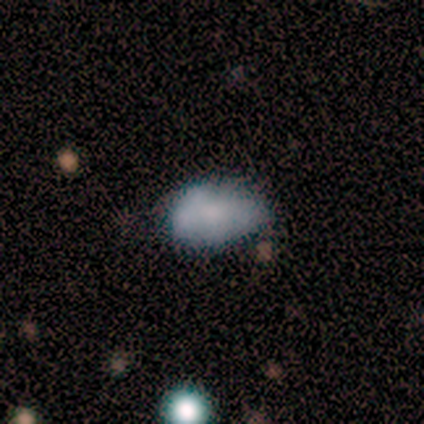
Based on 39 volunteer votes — Smooth or featured?
  - smooth: 67% *
  - featured or disk: 28%
  - star or artifact: 5%
How rounded?
  - in between: 85% *
  - round: 15%
  - cigar-shaped: 0%
Merging?
  - none: 43% *
  - minor disturbance: 41%
  - major disturbance: 11%
  - merger: 5%